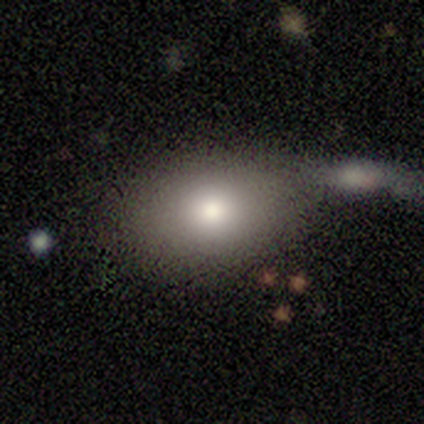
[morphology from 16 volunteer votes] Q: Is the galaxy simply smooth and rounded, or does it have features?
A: smooth — 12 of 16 (75%).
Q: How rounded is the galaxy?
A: in between — 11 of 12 (92%).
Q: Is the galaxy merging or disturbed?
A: none — 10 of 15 (67%).